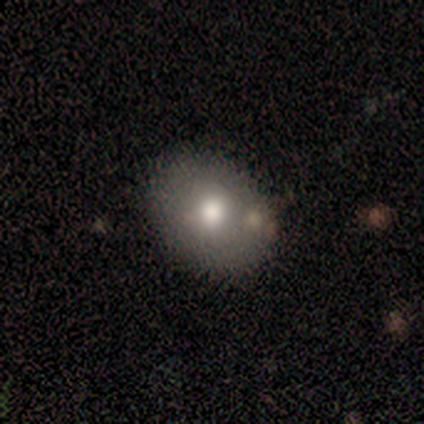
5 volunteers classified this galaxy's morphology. Smooth or featured? featured or disk (60%)
Edge-on disk? no (67%)
Bar? no (100%)
Spiral arms? no (100%)
Bulge size? moderate (100%)
Merging? none (80%)